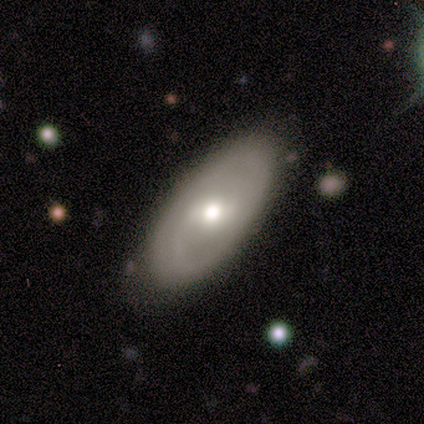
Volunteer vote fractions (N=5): Volunteers were most divided on "spiral winding" (2-way tie): tight: 50%, medium: 50%, loose: 0%; "spiral arm count" (2-way tie): 2: 50%, can't tell: 50%, 1: 0%, 3: 0%, 4: 0%, more than 4: 0%. More confident: edge-on disk — no (100%); bar — no (100%); bulge size — moderate (100%); merging — none (80%); spiral arms — yes (67%); smooth or featured — featured or disk (60%).